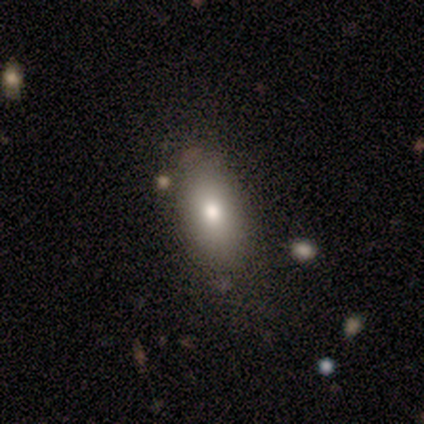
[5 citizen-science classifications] This is likely a smooth galaxy (60%). How rounded: likely in between (67%). Merging: clearly none (100%).